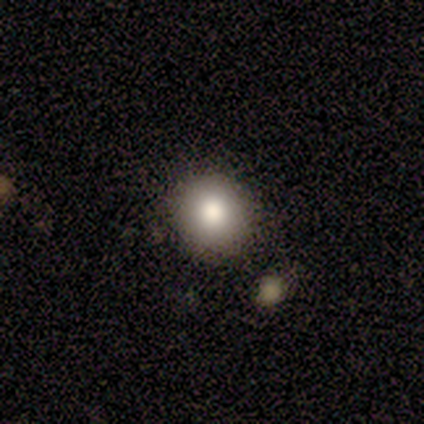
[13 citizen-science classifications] smooth 85%, featured or disk 8%, star or artifact 8%. Down the decision tree: how rounded — round (82%); merging — none (83%).